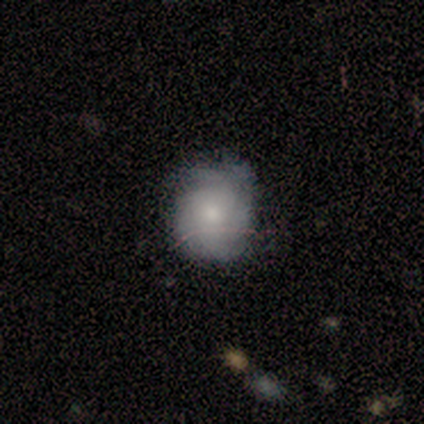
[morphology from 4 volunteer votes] Smooth or featured? featured or disk (75%)
Edge-on disk? no (100%)
Bar? no (100%)
Spiral arms? yes (100%)
Spiral winding? tight (33%, tied with medium and loose)
Spiral arm count? 2 (33%, tied with 3 and can't tell)
Bulge size? small (67%)
Merging? none (100%)